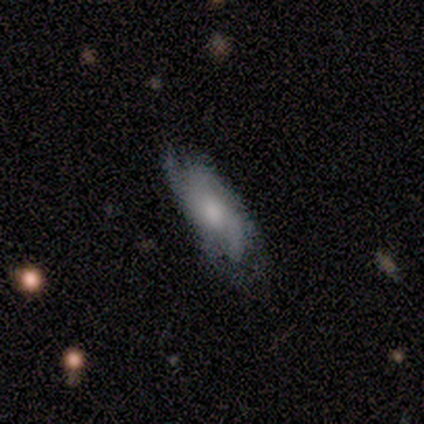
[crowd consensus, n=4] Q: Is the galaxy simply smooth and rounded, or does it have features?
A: smooth — 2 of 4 (50%, tied with featured or disk).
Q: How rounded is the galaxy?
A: in between — 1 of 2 (50%, tied with cigar-shaped).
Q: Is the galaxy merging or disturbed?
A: none — 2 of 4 (50%).